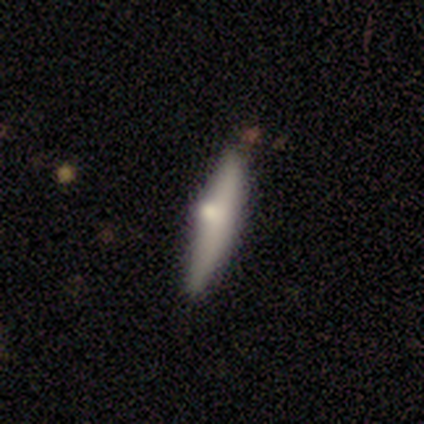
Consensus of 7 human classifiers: smooth-or-featured: featured or disk: 86% | smooth: 14% | star or artifact: 0%
  disk-edge-on: yes: 100% | no: 0%
    edge-on-bulge: rounded: 83% | none: 17% | boxy: 0%
  merging: none: 86% | minor disturbance: 14% | major disturbance: 0% | merger: 0%